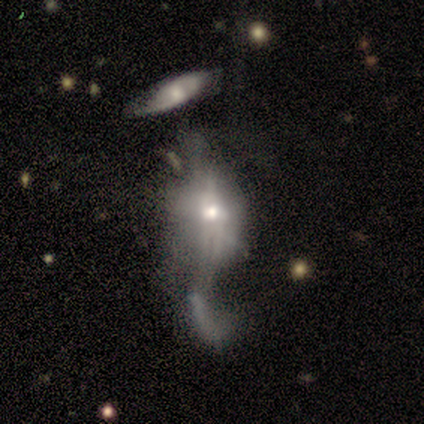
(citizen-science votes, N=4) smooth_or_featured: smooth (p=0.50) [tied with: featured or disk p=0.50]
how_rounded: in between (p=1.00)
merging: major disturbance (p=1.00)